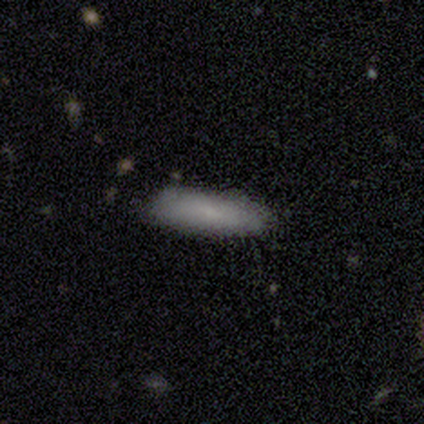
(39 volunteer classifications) A smooth galaxy with no disk features (79%) that is cigar-shaped (55%).

Vote fractions:
- Smooth or featured? smooth: 79% / featured or disk: 13% / star or artifact: 8%
- How rounded? cigar-shaped: 55% / in between: 45% / round: 0%
- Merging? none: 72% / minor disturbance: 22% / major disturbance: 3% / merger: 3%